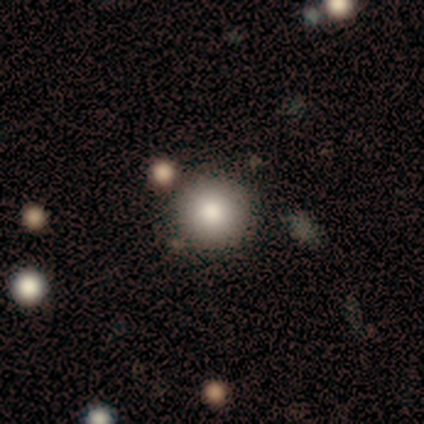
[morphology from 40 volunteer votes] Smooth or featured? 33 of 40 (82%) said smooth. How rounded? 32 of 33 (97%) said round. Merging? 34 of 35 (97%) said none.